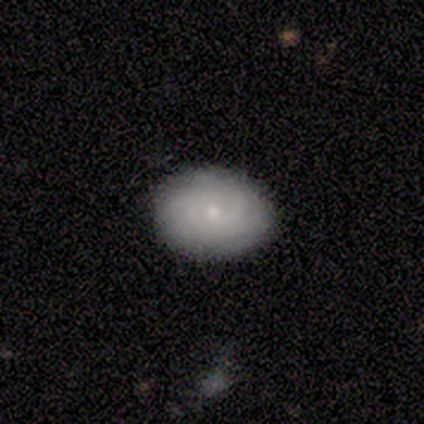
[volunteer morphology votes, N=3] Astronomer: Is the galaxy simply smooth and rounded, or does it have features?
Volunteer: smooth — 67%.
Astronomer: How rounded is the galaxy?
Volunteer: in between — 100%.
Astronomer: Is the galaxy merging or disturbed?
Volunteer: none — 67%.